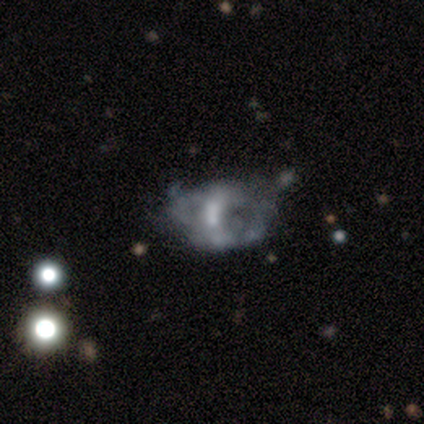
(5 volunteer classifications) Smooth or featured?
  - featured or disk: 80% *
  - smooth: 20%
  - star or artifact: 0%
Edge-on disk?
  - no: 100% *
  - yes: 0%
Bar?
  - no: 75% *
  - weak: 25%
  - strong: 0%
Spiral arms?
  - no: 75% *
  - yes: 25%
Bulge size?
  - small: 50% * (tied)
  - none: 50% * (tied)
  - dominant: 0%
  - large: 0%
  - moderate: 0%
Merging?
  - none: 40% * (tied)
  - major disturbance: 40% * (tied)
  - minor disturbance: 20%
  - merger: 0%